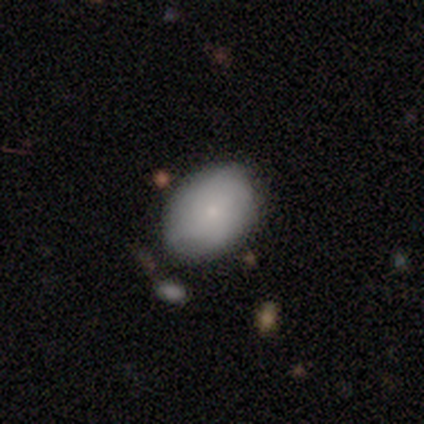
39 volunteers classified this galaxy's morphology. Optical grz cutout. It shows a smooth galaxy with no disk features (64%) that is in between round and cigar-shaped (80%). Merging: none (85%).